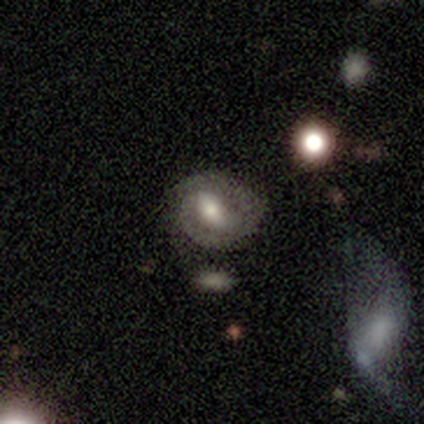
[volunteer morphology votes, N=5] This appears to be a smooth galaxy with no disk features (60%) that is in between round and cigar-shaped (100%). Merging: none (100%).